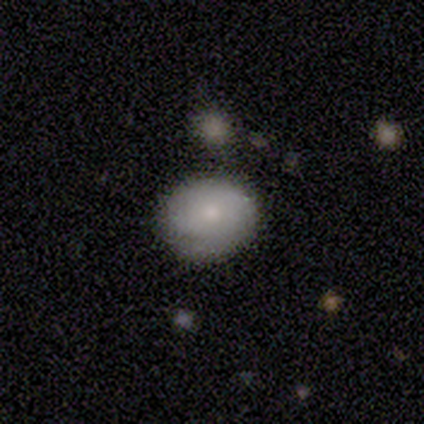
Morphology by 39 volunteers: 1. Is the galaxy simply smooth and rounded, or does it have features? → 87% smooth, 10% featured or disk, 3% star or artifact.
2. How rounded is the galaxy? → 68% round, 32% in between, 0% cigar-shaped.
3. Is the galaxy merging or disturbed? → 58% none, 39% minor disturbance, 3% merger, 0% major disturbance.